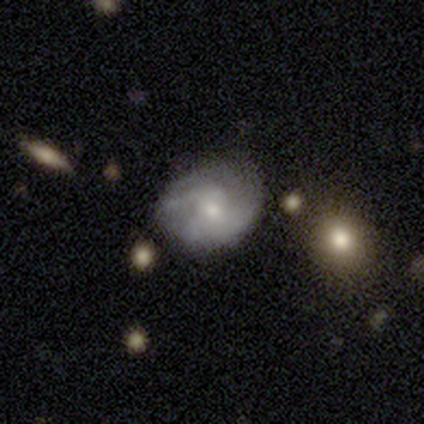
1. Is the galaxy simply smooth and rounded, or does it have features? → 60% featured or disk, 40% smooth, 0% star or artifact.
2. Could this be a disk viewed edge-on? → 100% no, 0% yes.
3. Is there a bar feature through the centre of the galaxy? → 100% weak, 0% strong, 0% no.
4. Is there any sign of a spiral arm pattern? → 100% yes, 0% no.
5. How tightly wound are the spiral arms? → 67% medium, 33% loose, 0% tight.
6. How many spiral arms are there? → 67% can't tell, 33% 3, 0% 1, 0% 2, 0% 4, 0% more than 4.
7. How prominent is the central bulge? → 100% small, 0% dominant, 0% large, 0% moderate, 0% none.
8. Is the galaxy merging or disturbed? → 60% none, 40% minor disturbance, 0% major disturbance, 0% merger.